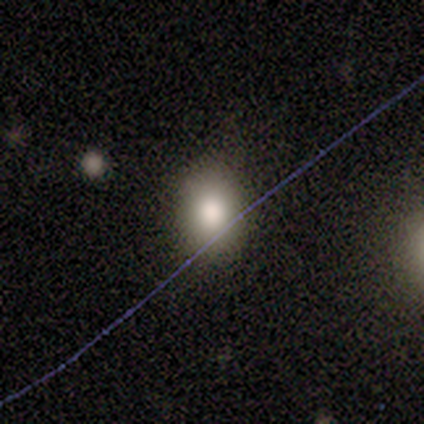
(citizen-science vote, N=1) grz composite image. It shows a smooth galaxy with no disk features (100%) that is round (100%). Merging: none (100%).